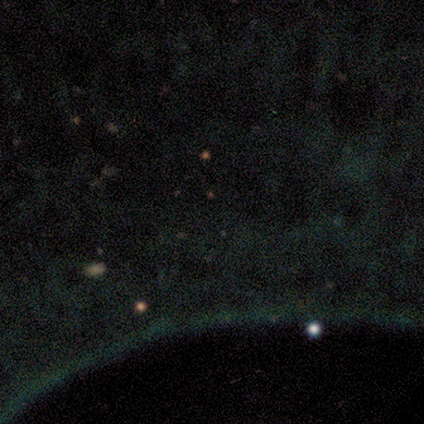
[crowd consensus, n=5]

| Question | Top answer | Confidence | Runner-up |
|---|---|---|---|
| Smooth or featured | star or artifact | 100% | — |